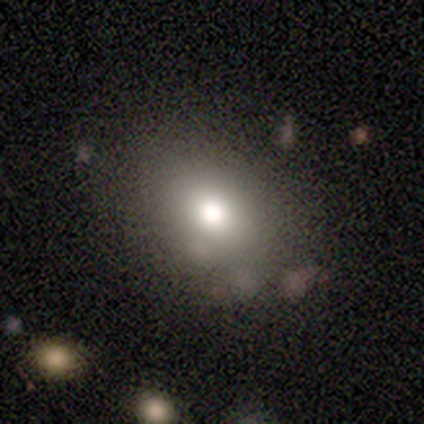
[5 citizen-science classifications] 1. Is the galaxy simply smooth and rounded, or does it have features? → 100% smooth, 0% featured or disk, 0% star or artifact.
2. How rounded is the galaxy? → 60% in between, 40% round, 0% cigar-shaped.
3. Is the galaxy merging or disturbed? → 100% none, 0% minor disturbance, 0% major disturbance, 0% merger.